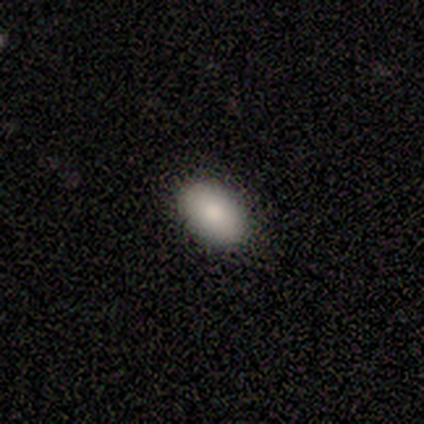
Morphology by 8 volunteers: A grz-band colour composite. It shows a smooth galaxy with no disk features (88%) that is in between round and cigar-shaped (100%). Merging: none (75%).